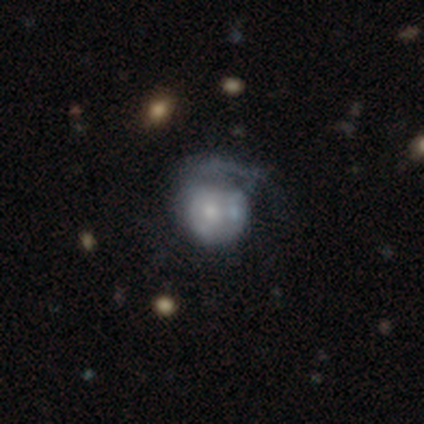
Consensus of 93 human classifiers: Volunteers were most divided on "bulge size": small: 44%, moderate: 40%, none: 9%, dominant: 4%, large: 4%. Remaining: edge-on disk — no (100%); bar — no (89%); smooth or featured — featured or disk (59%); spiral arms — no (58%); merging — major disturbance (39%).